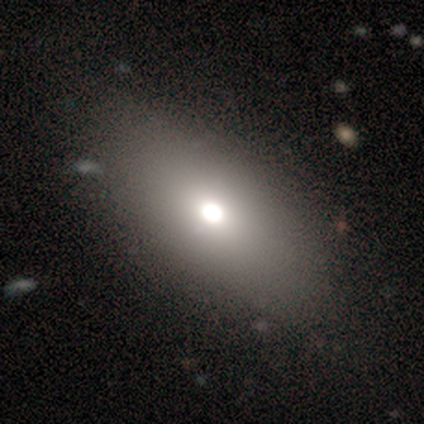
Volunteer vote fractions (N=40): smooth_or_featured: smooth (p=0.75) [alt: featured or disk p=0.17]
how_rounded: in between (p=0.93) [alt: round p=0.07]
merging: none (p=0.54) [alt: minor disturbance p=0.05]